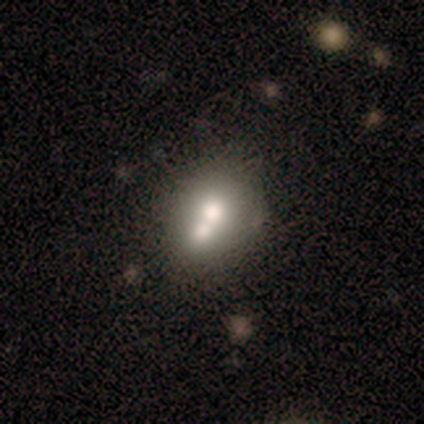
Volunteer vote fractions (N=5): smooth-or-featured: smooth: 80% | featured or disk: 20% | star or artifact: 0%
  how-rounded: round: 50% (tied) | in between: 50% (tied) | cigar-shaped: 0%
  merging: minor disturbance: 40% (tied) | merger: 40% (tied) | none: 20% | major disturbance: 0%